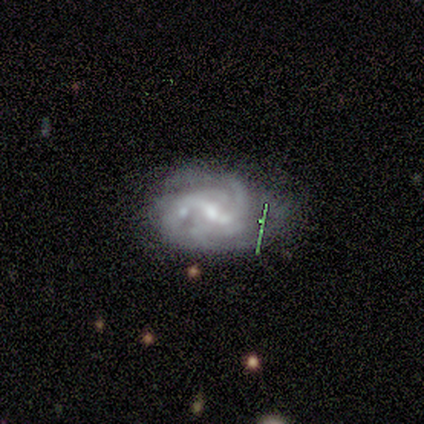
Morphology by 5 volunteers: Q: Smooth or featured?
A: featured or disk (100%)
Q: Edge-on disk?
A: no (100%)
Q: Bar?
A: weak (80%); runner-up: strong (20%)
Q: Spiral arms?
A: yes (100%)
Q: Spiral winding?
A: medium (60%); runner-up: tight (40%)
Q: Spiral arm count?
A: can't tell (60%); runner-up: 2 (20%)
Q: Bulge size?
A: small (60%); runner-up: moderate (40%)
Q: Merging?
A: none (60%); runner-up: minor disturbance (20%)